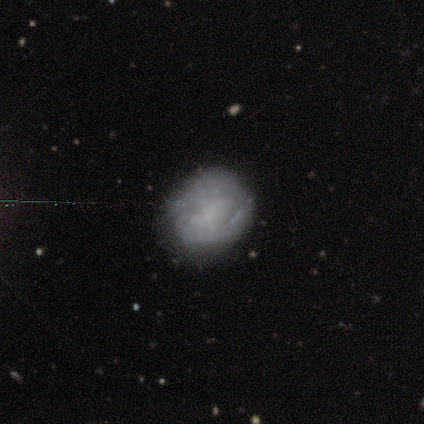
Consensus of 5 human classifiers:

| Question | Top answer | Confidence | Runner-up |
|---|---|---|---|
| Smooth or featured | smooth | 60% | featured or disk (40%) |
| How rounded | round | 67% | in between (33%) |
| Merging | none | 100% | — |